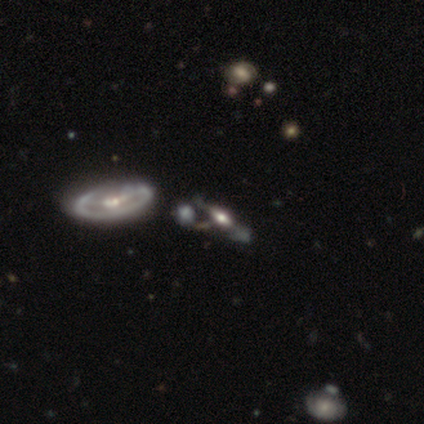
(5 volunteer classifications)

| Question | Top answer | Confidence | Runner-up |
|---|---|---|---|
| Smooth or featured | featured or disk | 60% | star or artifact (40%) |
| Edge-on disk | no | 100% | — |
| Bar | weak | 67% | strong (33%) |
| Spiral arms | yes | 67% | no (33%) |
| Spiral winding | tight | 50% | tied: loose (50%) |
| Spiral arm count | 2 | 50% | tied: can't tell (50%) |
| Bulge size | moderate | 67% | dominant (33%) |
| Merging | none | 67% | merger (33%) |